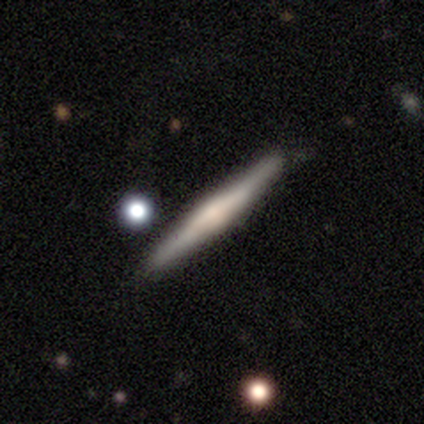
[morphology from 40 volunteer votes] featured or disk 78%, smooth 18%, star or artifact 5%. Down the decision tree: edge-on disk — yes (100%); edge-on bulge — rounded (48%); merging — none (89%).